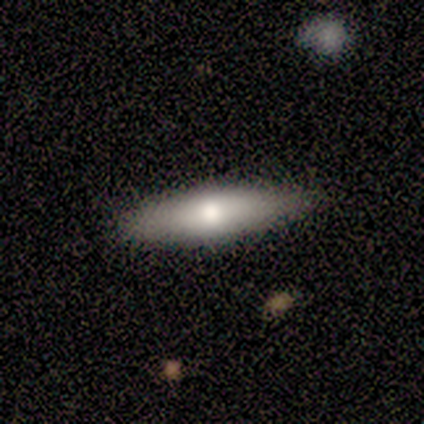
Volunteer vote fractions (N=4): A smooth galaxy with no disk features (100%) that is cigar-shaped (75%).

Vote fractions:
- Smooth or featured? smooth: 100% / featured or disk: 0% / star or artifact: 0%
- How rounded? cigar-shaped: 75% / in between: 25% / round: 0%
- Merging? none: 75% / minor disturbance: 25% / major disturbance: 0% / merger: 0%